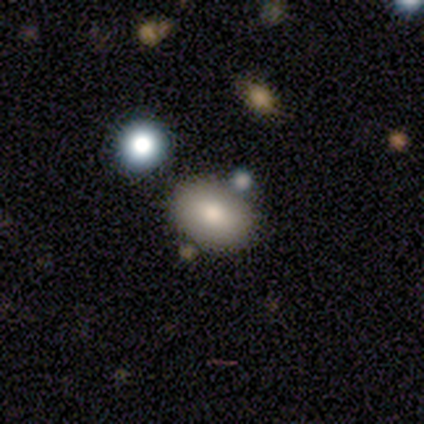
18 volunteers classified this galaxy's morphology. Smooth or featured: smooth — 83% (star or artifact — 17%)
How rounded: in between — 80% (round — 20%)
Merging: none — 67% (minor disturbance — 13%)